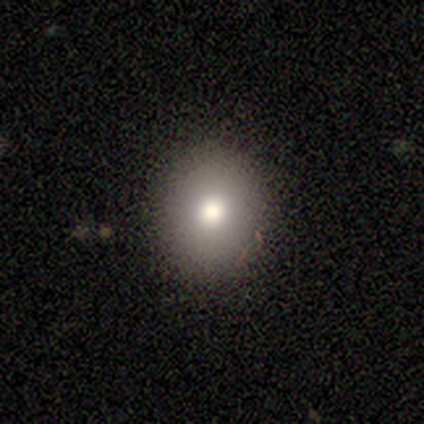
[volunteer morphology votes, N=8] smooth-or-featured: smooth: 75% | featured or disk: 12% | star or artifact: 12%
  how-rounded: round: 100% | in between: 0% | cigar-shaped: 0%
  merging: none: 100% | minor disturbance: 0% | major disturbance: 0% | merger: 0%